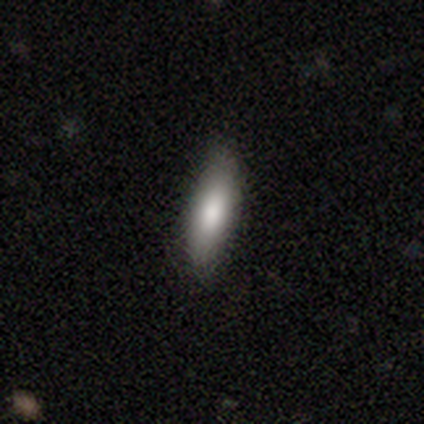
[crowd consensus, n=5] Smooth or featured: smooth — 100%
How rounded: in between — 80% (cigar-shaped — 20%)
Merging: none — 100%